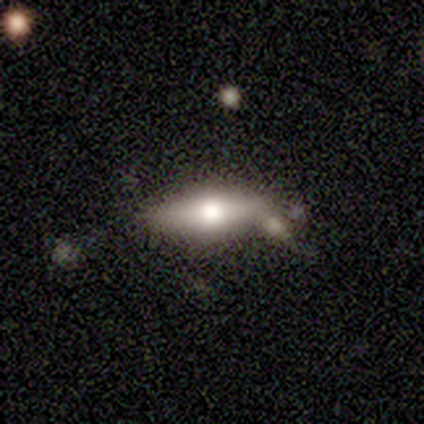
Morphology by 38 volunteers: smooth 58%, featured or disk 34%, star or artifact 8%. Down the decision tree: how rounded — in between (59%); merging — none (71%).